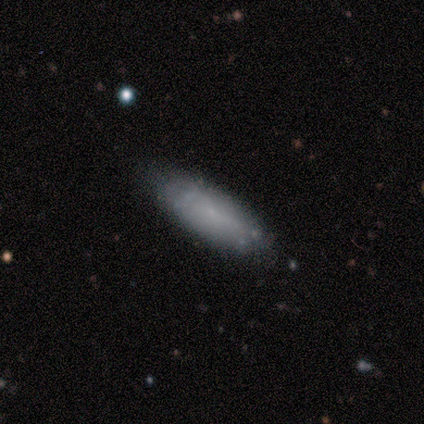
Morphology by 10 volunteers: Overall: smooth (70%; featured or disk 30%). How rounded: cigar-shaped (57%; in between 43%). Merging: none (80%).